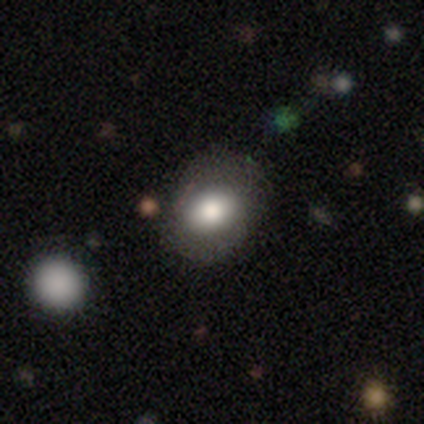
This appears to be a smooth galaxy with no disk features (75%) that is in between round and cigar-shaped (54%). Merging: none (80%).